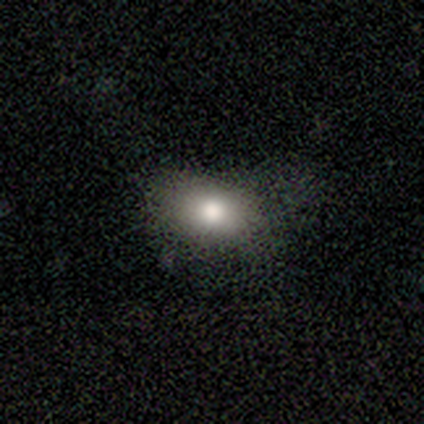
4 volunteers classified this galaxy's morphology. This is likely a smooth galaxy (75%). How rounded: clearly in between (100%). Merging: clearly none (100%).